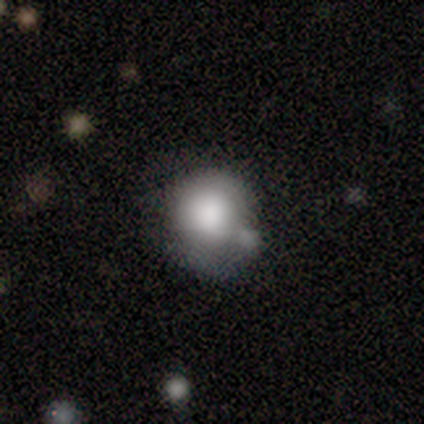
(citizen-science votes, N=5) Overall: smooth (80%). How rounded: round (75%). Merging: minor disturbance (60%; none 20%).